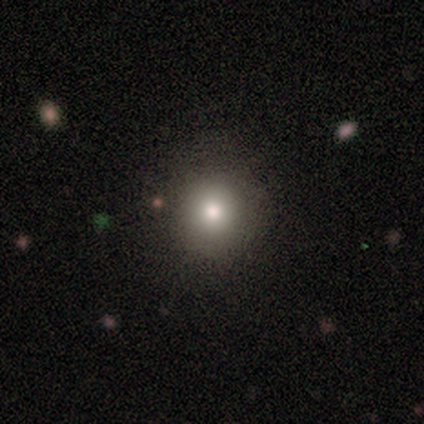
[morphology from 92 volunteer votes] smooth 73%, star or artifact 14%, featured or disk 13%. Down the decision tree: how rounded — round (88%); merging — none (92%).